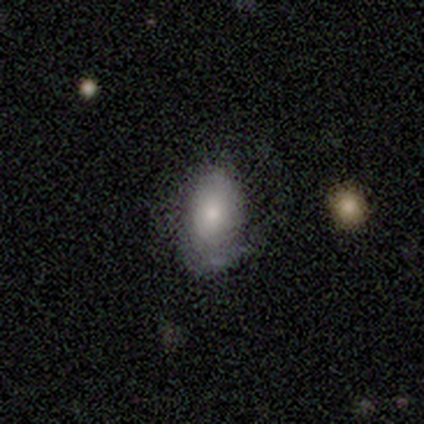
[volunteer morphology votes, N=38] Smooth or featured: smooth — 74% (featured or disk — 26%)
How rounded: in between — 89% (round — 7%)
Merging: none — 32% (minor disturbance — 21%)